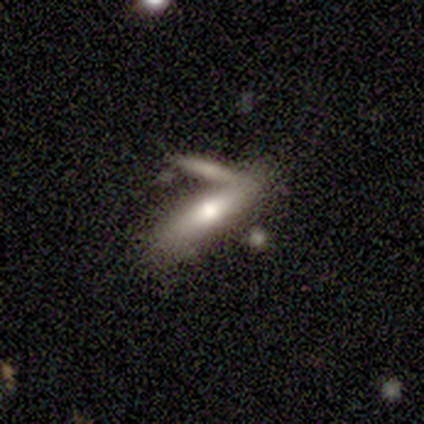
A smooth galaxy with no disk features (100%) that is cigar-shaped (100%). Merging: none (50%, tied with merger).